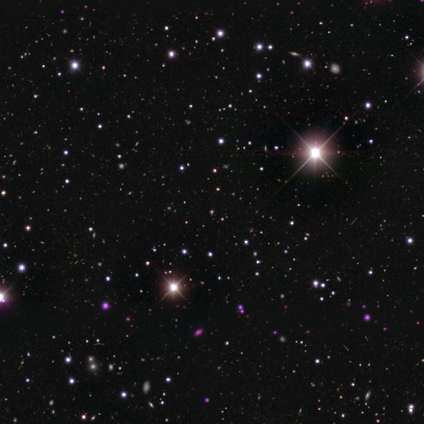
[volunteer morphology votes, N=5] Smooth or featured?
  - star or artifact: 100% *
  - smooth: 0%
  - featured or disk: 0%